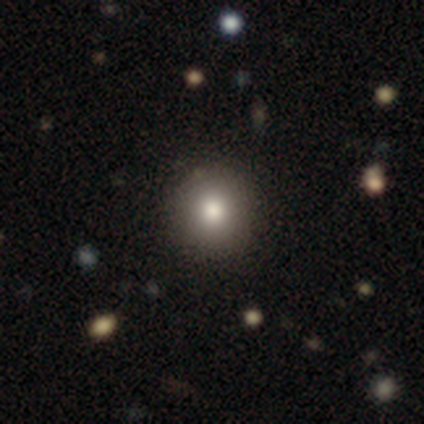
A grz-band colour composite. It shows a smooth galaxy with no disk features (100%) that is round (100%). Merging: none (100%).